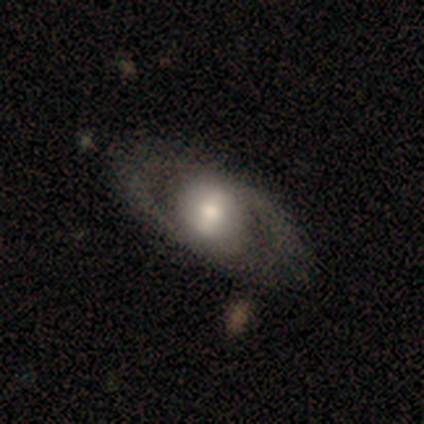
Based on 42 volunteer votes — Overall: featured or disk (69%; smooth 31%). Edge-on disk: no (97%). Bar: no (39%; strong 32%). Spiral arms: yes (57%; no 43%). Spiral arm count: 2 (62%; can't tell 38%). Spiral winding: medium (88%). Bulge size: moderate (71%). Merging: none (50%; major disturbance 21%).